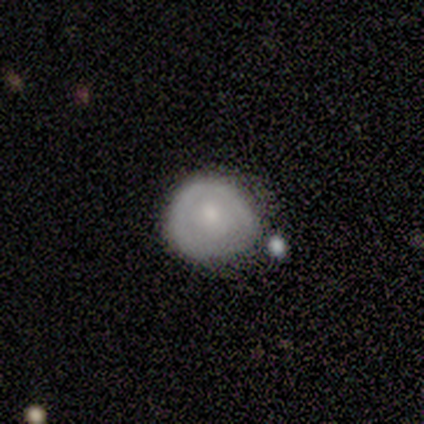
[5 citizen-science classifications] Overall: smooth (60%; featured or disk 40%). How rounded: round (100%). Merging: none (60%; minor disturbance 20%).